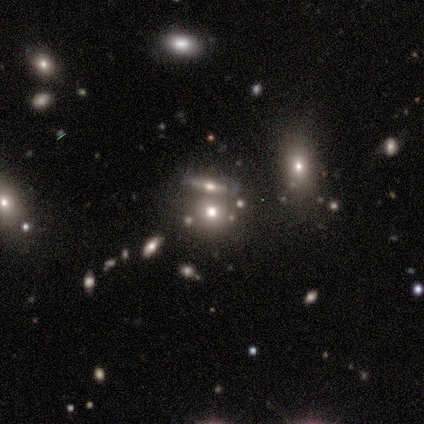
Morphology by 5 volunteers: Smooth or featured: smooth — 40% (tied with featured or disk — 40%)
How rounded: round — 50% (tied with in between — 50%)
Merging: merger — 75% (none — 25%)